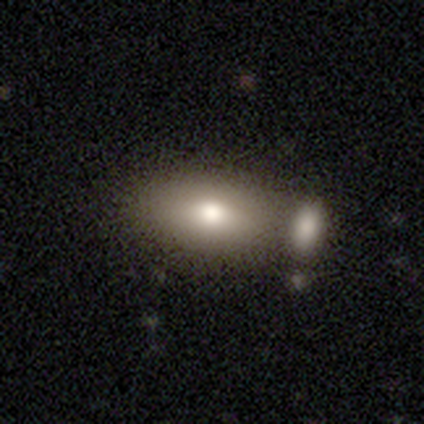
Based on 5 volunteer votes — Smooth or featured? 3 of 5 (60%) said smooth. How rounded? 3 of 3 (100%) said in between. Merging? 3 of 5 (60%) said none.